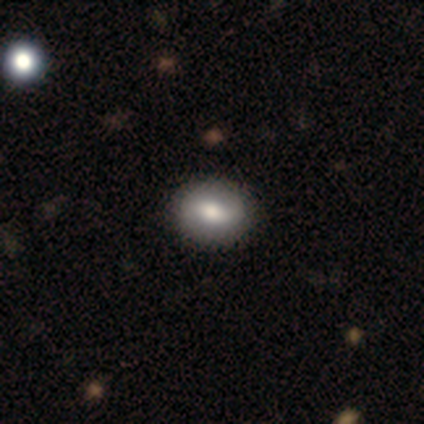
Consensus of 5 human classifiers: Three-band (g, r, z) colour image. It shows a smooth galaxy with no disk features (40%, tied with featured or disk) that is round (100%). Merging: none (100%).